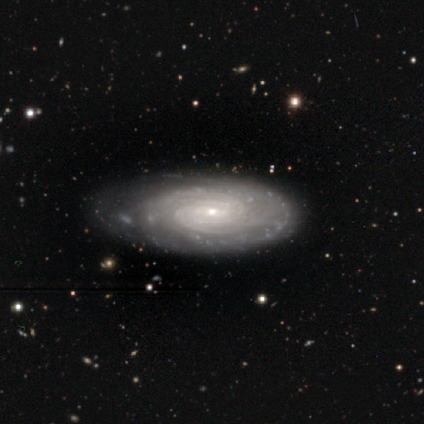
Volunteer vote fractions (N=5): smooth_or_featured: featured or disk (p=0.60) [alt: smooth p=0.40]
disk_edge_on: no (p=1.00)
bar: no (p=1.00)
has_spiral_arms: yes (p=1.00)
spiral_winding: tight (p=0.67) [alt: medium p=0.33]
spiral_arm_count: can't tell (p=1.00)
bulge_size: small (p=0.67) [alt: moderate p=0.33]
merging: minor disturbance (p=0.40) [alt: none p=0.20]